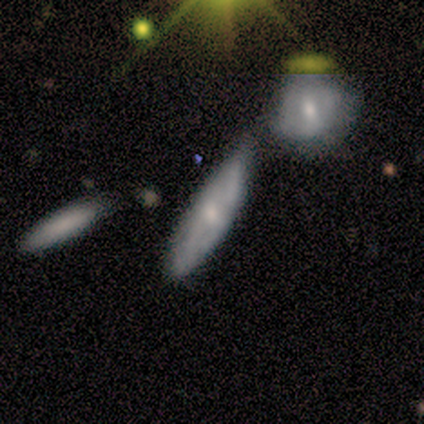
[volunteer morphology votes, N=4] featured or disk 50%, smooth 25%, star or artifact 25%. Down the decision tree: edge-on disk — no (100%); bar — no (100%); spiral arms — yes (50%, tied with no); spiral arm count — can't tell (100%); spiral winding — loose (100%); bulge size — small (100%); merging — minor disturbance (67%).